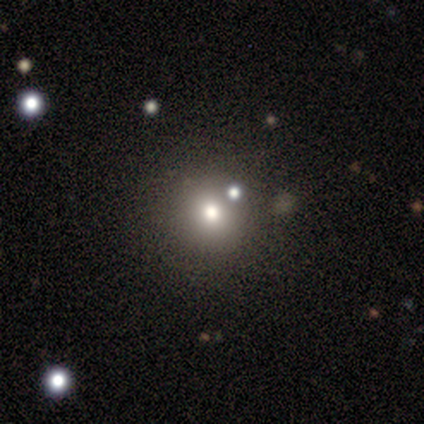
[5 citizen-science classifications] Smooth or featured?
  - smooth: 100% *
  - featured or disk: 0%
  - star or artifact: 0%
How rounded?
  - round: 100% *
  - in between: 0%
  - cigar-shaped: 0%
Merging?
  - none: 100% *
  - minor disturbance: 0%
  - major disturbance: 0%
  - merger: 0%